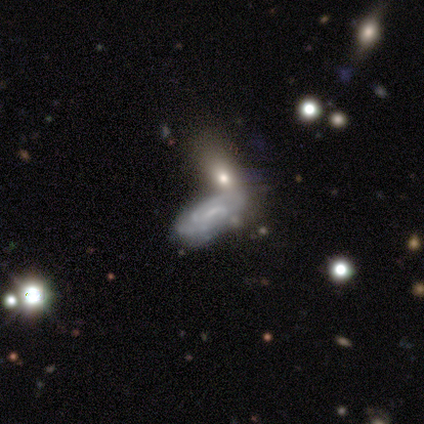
Volunteers were most divided on "bar": weak: 48%, no: 43%, strong: 9%. More confident: spiral arms — yes (89%); edge-on disk — no (88%); smooth or featured — featured or disk (78%); bulge size — small (58%); spiral arm count — 2 (53%); merging — none (52%); spiral winding — tight (50%).